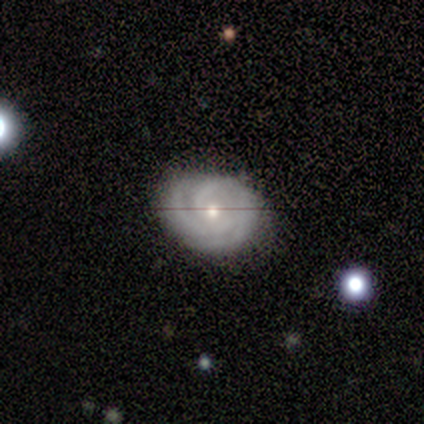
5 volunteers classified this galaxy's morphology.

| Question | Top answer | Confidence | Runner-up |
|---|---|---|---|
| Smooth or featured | featured or disk | 100% | — |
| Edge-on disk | no | 80% | yes (20%) |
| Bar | no | 75% | weak (25%) |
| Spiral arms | yes | 100% | — |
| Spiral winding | tight | 100% | — |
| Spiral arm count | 2 | 50% | 3 (25%) |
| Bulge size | small | 75% | moderate (25%) |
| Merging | none | 40% | tied: minor disturbance (40%) |